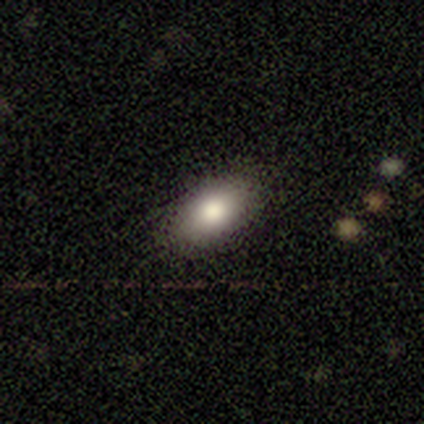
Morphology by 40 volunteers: smooth_or_featured: smooth (p=0.82) [alt: star or artifact p=0.12]
how_rounded: in between (p=1.00)
merging: none (p=0.89) [alt: minor disturbance p=0.09]